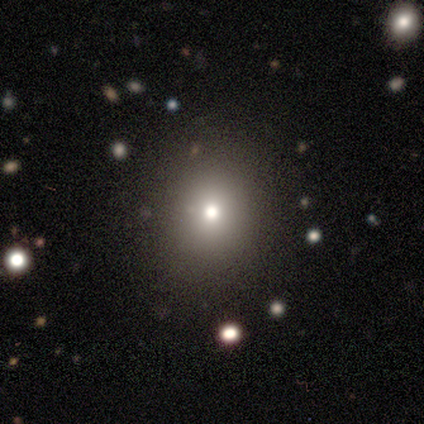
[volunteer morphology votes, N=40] Overall: smooth (62%). How rounded: round (92%). Merging: none (88%).